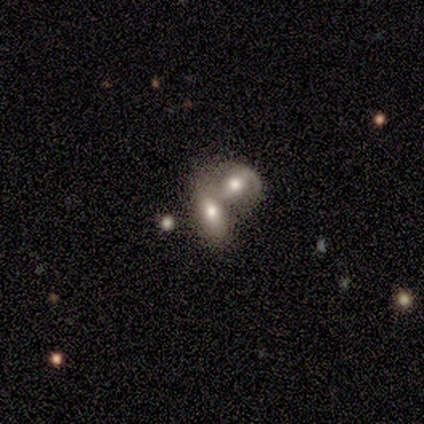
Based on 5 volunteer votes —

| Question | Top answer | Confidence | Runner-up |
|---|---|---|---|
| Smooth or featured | smooth | 100% | — |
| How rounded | in between | 80% | round (20%) |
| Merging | merger | 100% | — |